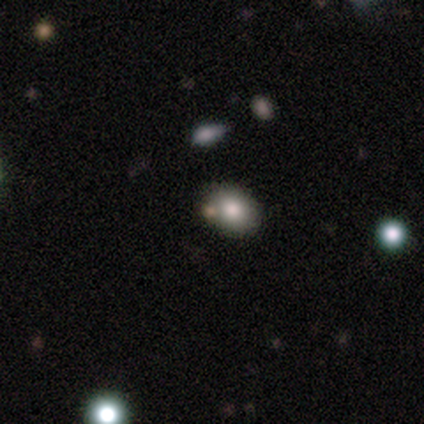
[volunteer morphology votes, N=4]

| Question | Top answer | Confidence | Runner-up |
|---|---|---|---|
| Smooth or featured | smooth | 100% | — |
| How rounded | round | 50% | tied: in between (50%) |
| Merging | none | 100% | — |